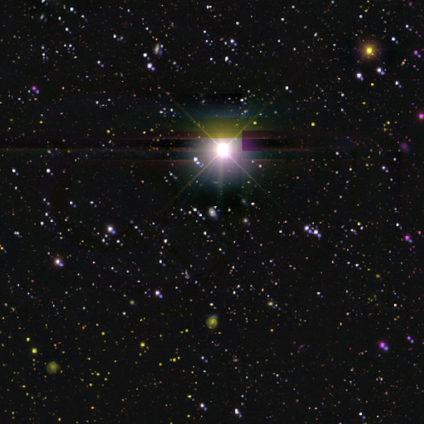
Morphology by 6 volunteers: Volunteers were most divided on "smooth or featured": star or artifact: 83%, smooth: 17%, featured or disk: 0%.